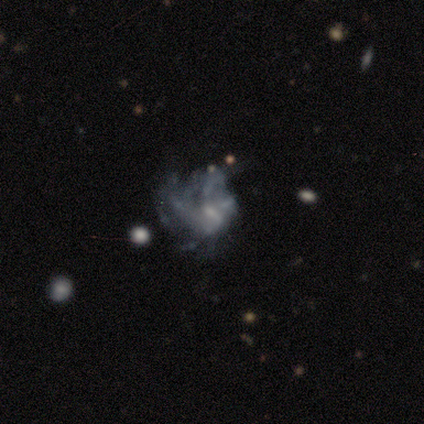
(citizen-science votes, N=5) Q: Smooth or featured?
A: featured or disk (80%); runner-up: star or artifact (20%)
Q: Edge-on disk?
A: no (100%)
Q: Bar?
A: no (75%); runner-up: weak (25%)
Q: Spiral arms?
A: yes (50%); tied with: no (50%)
Q: Spiral winding?
A: tight (50%); tied with: medium (50%)
Q: Spiral arm count?
A: 3 (50%); tied with: can't tell (50%)
Q: Bulge size?
A: small (50%); runner-up: moderate (25%)
Q: Merging?
A: none (50%); tied with: minor disturbance (50%)